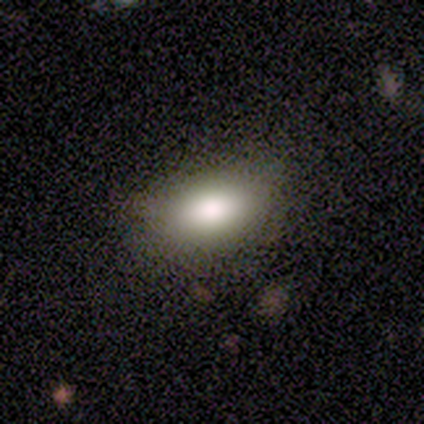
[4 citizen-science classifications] smooth_or_featured: smooth (p=0.75) [alt: star or artifact p=0.25]
how_rounded: in between (p=1.00)
merging: none (p=1.00)